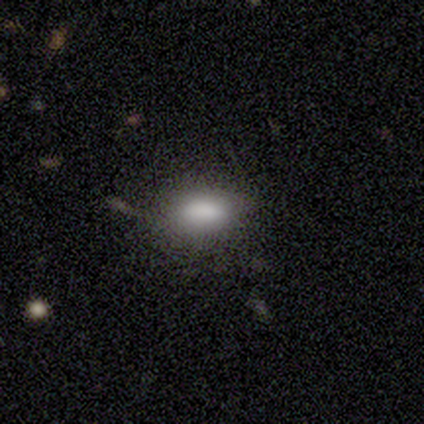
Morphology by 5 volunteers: Smooth or featured?
  - smooth: 100% *
  - featured or disk: 0%
  - star or artifact: 0%
How rounded?
  - in between: 100% *
  - round: 0%
  - cigar-shaped: 0%
Merging?
  - none: 40% * (tied)
  - minor disturbance: 40% * (tied)
  - major disturbance: 20%
  - merger: 0%